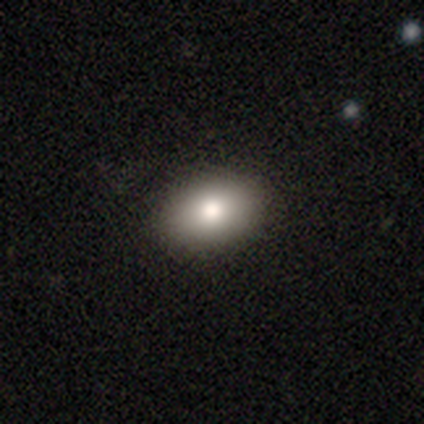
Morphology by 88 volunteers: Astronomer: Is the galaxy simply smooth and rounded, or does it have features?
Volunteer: smooth — 75%.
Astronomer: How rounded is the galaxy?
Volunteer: in between — 65%.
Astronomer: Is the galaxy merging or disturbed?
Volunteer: none — 85%.